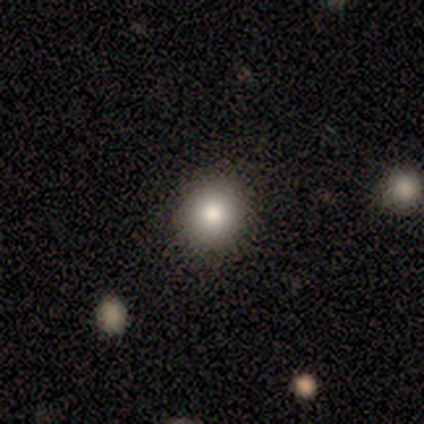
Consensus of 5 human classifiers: Smooth or featured?
  - smooth: 60% *
  - featured or disk: 20%
  - star or artifact: 20%
How rounded?
  - round: 100% *
  - in between: 0%
  - cigar-shaped: 0%
Merging?
  - none: 100% *
  - minor disturbance: 0%
  - major disturbance: 0%
  - merger: 0%